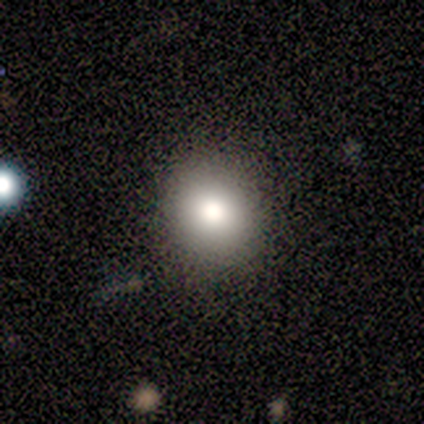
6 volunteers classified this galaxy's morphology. Smooth or featured? 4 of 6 (67%) said smooth. How rounded? 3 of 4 (75%) said round. Merging? 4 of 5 (80%) said none.